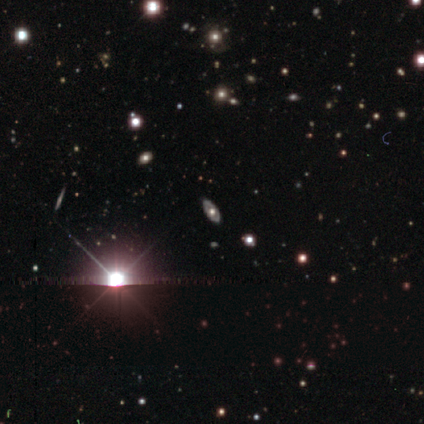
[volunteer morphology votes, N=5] This appears to be a star or artifact, not a galaxy (60%).